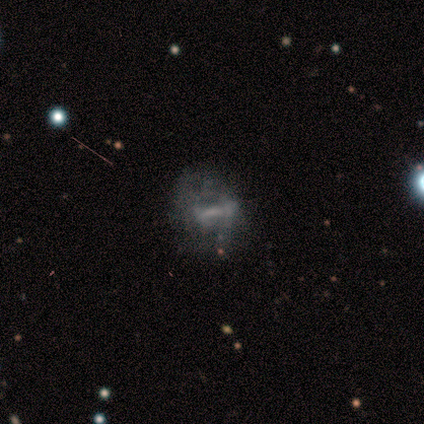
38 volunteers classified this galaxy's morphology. This is possibly a featured or disk galaxy (55%). It is clearly not viewed edge-on (90%). Bar: possibly strong (47%). Spiral arm pattern: likely no (74%). Central bulge: possibly none (53%). Merging: possibly major disturbance (48%).